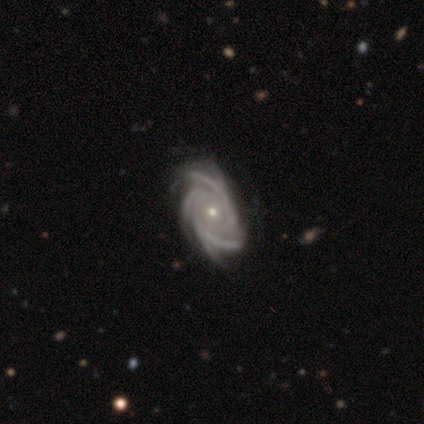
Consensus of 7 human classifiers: A featured or disk galaxy (100%) with no bar (86%), 4 (43%) medium (71%) spiral arms (100%) and a small central bulge (71%). Merging: none (57%).